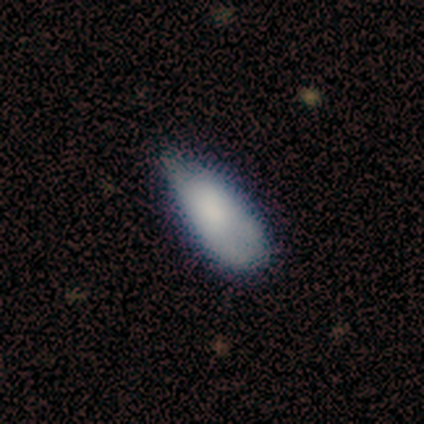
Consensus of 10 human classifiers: Smooth or featured? smooth (80%)
How rounded? in between (100%)
Merging? minor disturbance (70%)